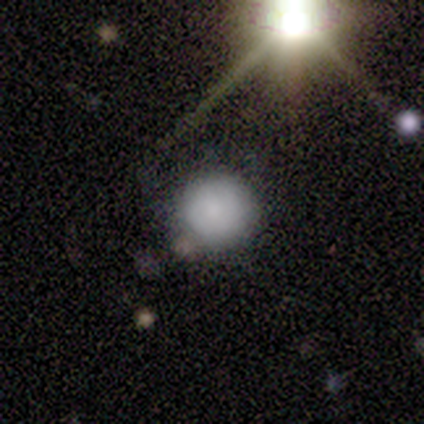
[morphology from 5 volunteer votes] Smooth or featured?
  - smooth: 60% *
  - featured or disk: 20%
  - star or artifact: 20%
How rounded?
  - round: 100% *
  - in between: 0%
  - cigar-shaped: 0%
Merging?
  - none: 75% *
  - minor disturbance: 25%
  - major disturbance: 0%
  - merger: 0%